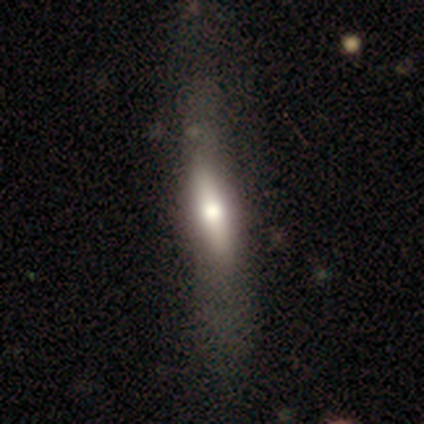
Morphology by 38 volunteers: Smooth or featured: smooth — 61% (featured or disk — 32%)
How rounded: cigar-shaped — 65% (in between — 30%)
Merging: none — 46% (minor disturbance — 31%)